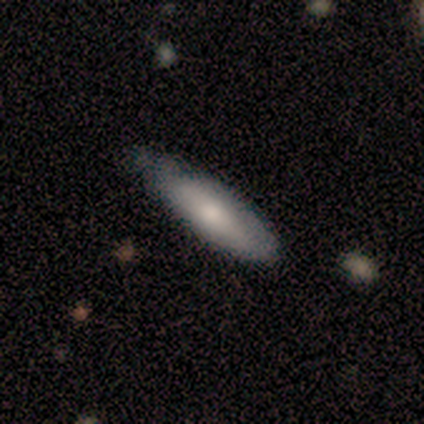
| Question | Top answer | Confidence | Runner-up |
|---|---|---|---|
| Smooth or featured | smooth | 100% | — |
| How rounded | cigar-shaped | 60% | in between (40%) |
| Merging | none | 100% | — |